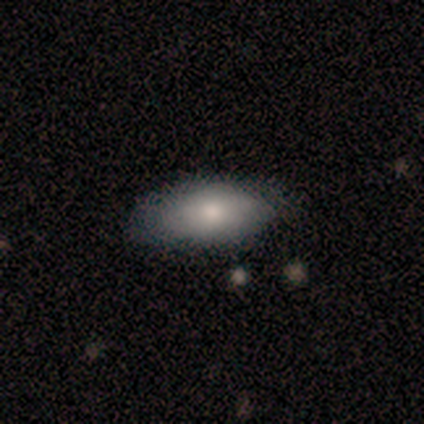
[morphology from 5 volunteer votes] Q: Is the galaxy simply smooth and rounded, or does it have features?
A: smooth — 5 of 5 (100%).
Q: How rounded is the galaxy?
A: in between — 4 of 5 (80%).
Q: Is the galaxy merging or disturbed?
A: none — 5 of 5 (100%).